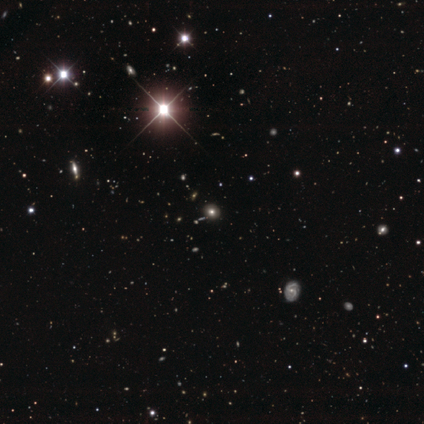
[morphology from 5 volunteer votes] smooth_or_featured: smooth (p=0.40) [tied with: star or artifact p=0.40]
how_rounded: round (p=0.50) [tied with: in between p=0.50]
merging: none (p=1.00)